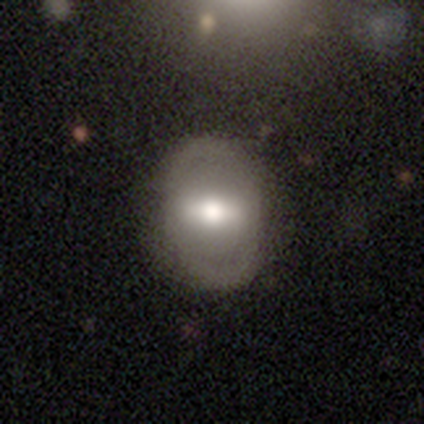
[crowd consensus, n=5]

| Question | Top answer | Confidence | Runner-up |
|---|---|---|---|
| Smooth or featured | featured or disk | 60% | smooth (40%) |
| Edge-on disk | no | 100% | — |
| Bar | strong | 67% | weak (33%) |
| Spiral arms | no | 100% | — |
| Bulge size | moderate | 67% | large (33%) |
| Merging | none | 80% | minor disturbance (20%) |